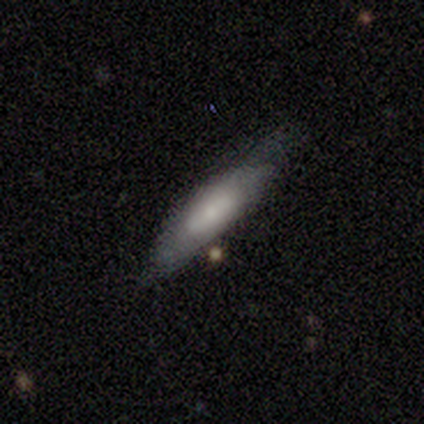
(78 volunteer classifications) Smooth or featured? 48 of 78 (62%) said smooth. How rounded? 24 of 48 (50%, tied with cigar-shaped) said in between. Merging? 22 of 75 (29%) said none.